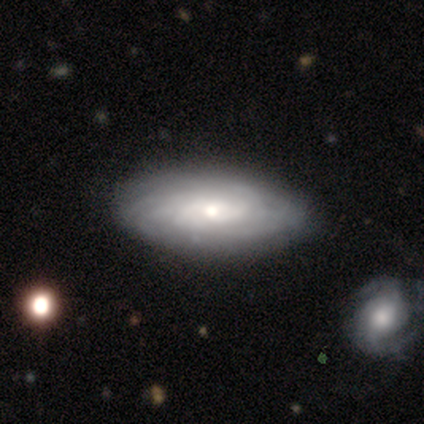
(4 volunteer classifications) Smooth or featured? 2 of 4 (50%, tied with featured or disk) said smooth. How rounded? 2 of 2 (100%) said in between. Merging? 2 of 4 (50%, tied with merger) said none.